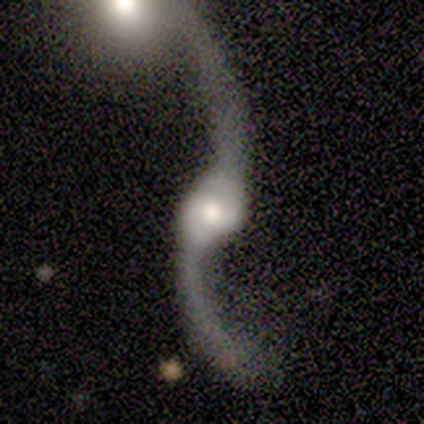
This appears to be a featured or disk galaxy (80%) with no bar (100%), 2 (100%) loose (67%) spiral arms (100%) and a moderate central bulge (67%). Merging: merger (80%).